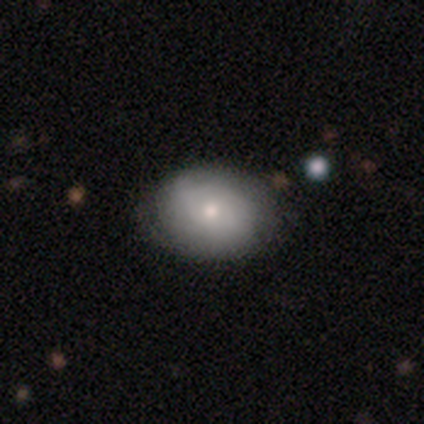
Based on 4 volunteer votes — Smooth or featured: smooth — 50% (tied with featured or disk — 50%)
How rounded: in between — 100%
Merging: none — 50% (minor disturbance — 25%)